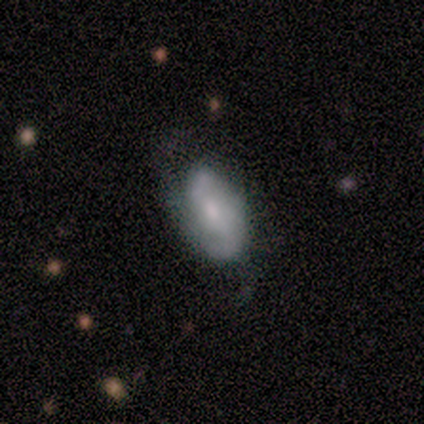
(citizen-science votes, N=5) smooth_or_featured: featured or disk (p=0.60) [alt: smooth p=0.40]
disk_edge_on: no (p=1.00)
bar: weak (p=0.67) [alt: no p=0.33]
has_spiral_arms: yes (p=0.67) [alt: no p=0.33]
spiral_winding: medium (p=0.50) [tied with: loose p=0.50]
spiral_arm_count: 2 (p=1.00)
bulge_size: small (p=1.00)
merging: minor disturbance (p=0.60) [alt: none p=0.40]